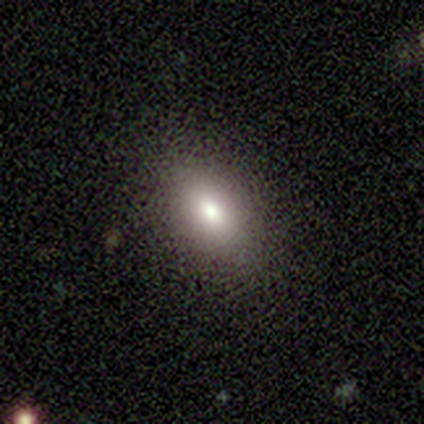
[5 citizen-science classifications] A smooth galaxy with no disk features (100%) that is in between round and cigar-shaped (100%). Merging: none (100%).